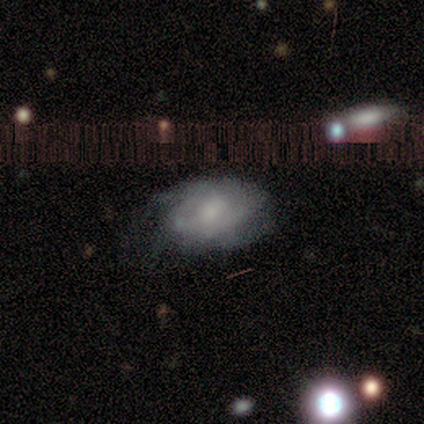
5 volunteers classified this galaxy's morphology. featured or disk 60%, smooth 20%, star or artifact 20%. Down the decision tree: edge-on disk — no (100%); bar — no (67%); spiral arms — yes (100%); spiral arm count — can't tell (67%); spiral winding — tight (67%); bulge size — moderate (33%, tied with small and none); merging — none (50%).